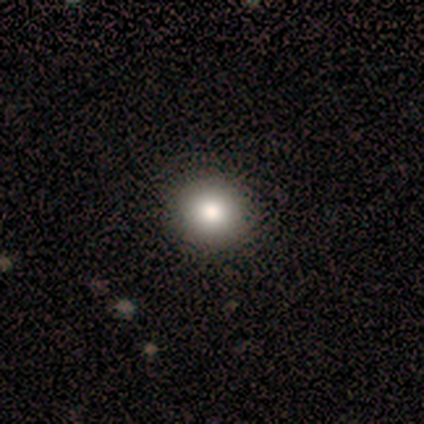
Smooth or featured: smooth — 90% (star or artifact — 8%)
How rounded: round — 92% (in between — 8%)
Merging: none — 97% (major disturbance — 3%)